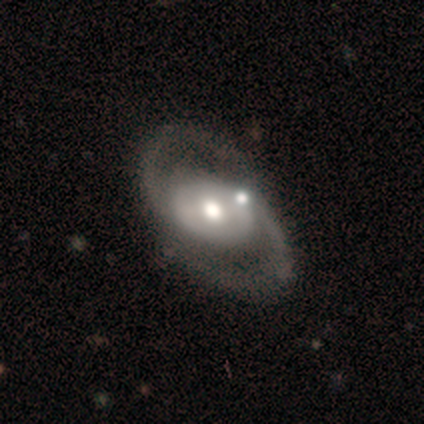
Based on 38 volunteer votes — Smooth or featured?
  - featured or disk: 84% *
  - star or artifact: 11%
  - smooth: 5%
Edge-on disk?
  - no: 97% *
  - yes: 3%
Bar?
  - no: 52% *
  - weak: 26%
  - strong: 23%
Spiral arms?
  - yes: 94% *
  - no: 6%
Spiral winding?
  - medium: 69% *
  - loose: 17%
  - tight: 14%
Spiral arm count?
  - 2: 97% *
  - can't tell: 3%
  - 1: 0%
  - 3: 0%
  - 4: 0%
  - more than 4: 0%
Bulge size?
  - moderate: 65% *
  - large: 23%
  - small: 10%
  - dominant: 3%
  - none: 0%
Merging?
  - none: 62% *
  - minor disturbance: 15%
  - merger: 15%
  - major disturbance: 9%